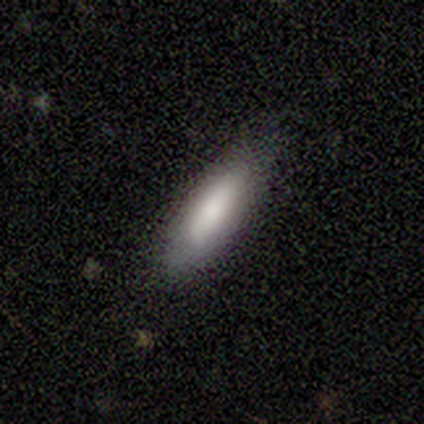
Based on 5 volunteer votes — A smooth galaxy with no disk features (60%) that is cigar-shaped (67%).

Vote fractions:
- Smooth or featured? smooth: 60% / featured or disk: 40% / star or artifact: 0%
- How rounded? cigar-shaped: 67% / in between: 33% / round: 0%
- Merging? none: 80% / minor disturbance: 20% / major disturbance: 0% / merger: 0%